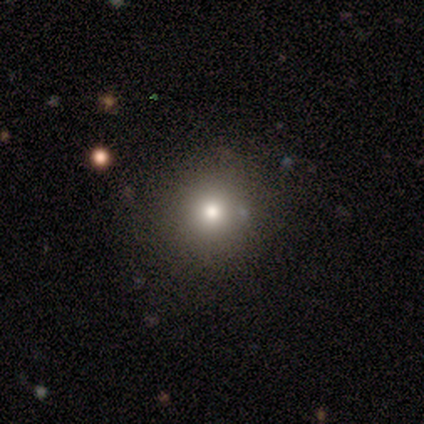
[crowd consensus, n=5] smooth 60%, featured or disk 20%, star or artifact 20%. Down the decision tree: how rounded — round (67%); merging — none (75%).